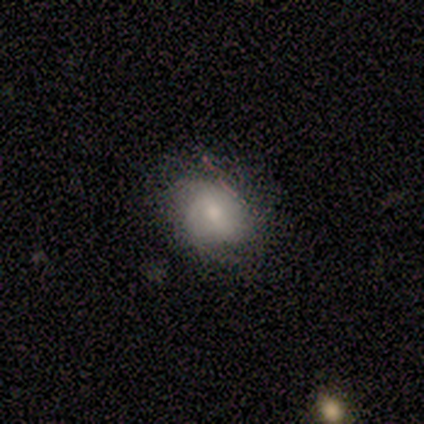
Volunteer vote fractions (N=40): This appears to be a smooth galaxy with no disk features (55%) that is round (73%). Merging: none (78%).